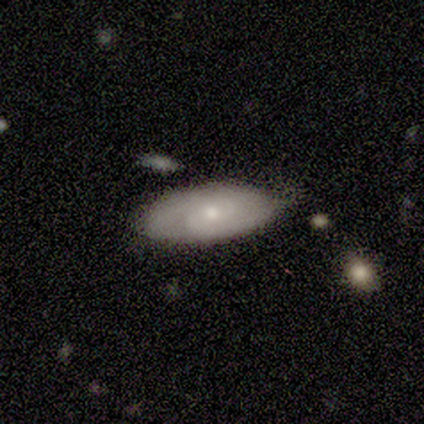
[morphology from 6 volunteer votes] Overall: featured or disk (83%). Edge-on disk: no (100%). Bar: no (100%). Spiral arms: yes (80%). Spiral arm count: 2 (50%; 4 25%). Spiral winding: tight (50%, tied with medium). Bulge size: small (100%). Merging: minor disturbance (50%; none 33%).